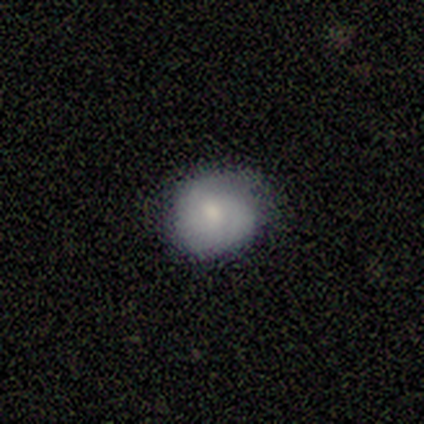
A smooth galaxy with no disk features (60%) that is round (100%).

Vote fractions:
- Smooth or featured? smooth: 60% / featured or disk: 40% / star or artifact: 0%
- How rounded? round: 100% / in between: 0% / cigar-shaped: 0%
- Merging? none: 80% / minor disturbance: 20% / major disturbance: 0% / merger: 0%